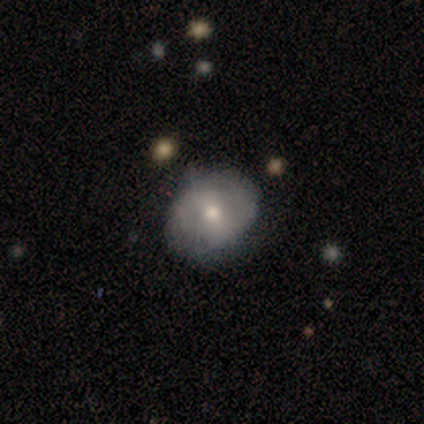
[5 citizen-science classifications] Overall: smooth (40%, tied with featured or disk). How rounded: round (100%). Merging: none (100%).